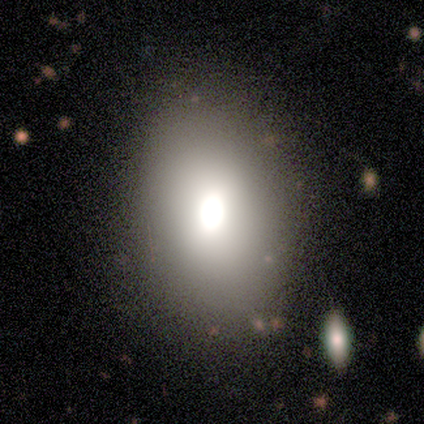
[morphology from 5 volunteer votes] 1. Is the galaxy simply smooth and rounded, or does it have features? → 60% smooth, 40% featured or disk, 0% star or artifact.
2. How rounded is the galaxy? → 67% round, 33% in between, 0% cigar-shaped.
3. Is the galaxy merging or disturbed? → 100% none, 0% minor disturbance, 0% major disturbance, 0% merger.